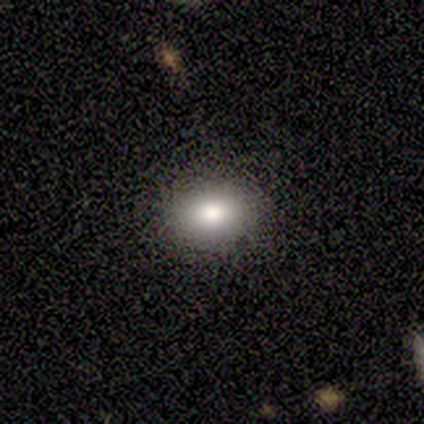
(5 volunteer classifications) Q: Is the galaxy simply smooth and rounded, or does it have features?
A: smooth — 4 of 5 (80%).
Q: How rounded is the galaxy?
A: in between — 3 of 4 (75%).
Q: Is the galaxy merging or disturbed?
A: none — 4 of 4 (100%).